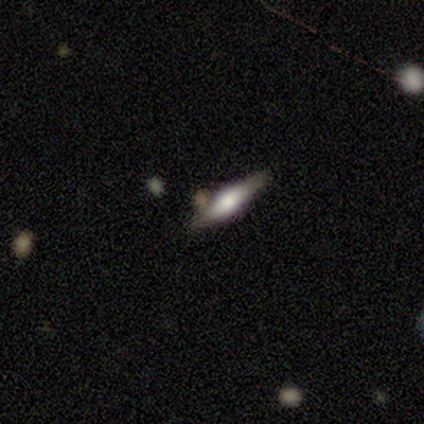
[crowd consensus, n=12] This is possibly a featured or disk galaxy (50%). It is clearly viewed edge-on (100%). Edge-on bulge: clearly rounded (83%). Merging: likely none (64%).